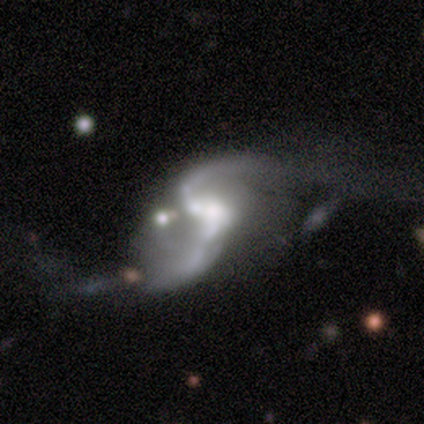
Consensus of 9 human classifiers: This is likely a featured or disk galaxy (78%). It is clearly not viewed edge-on (100%). Bar: possibly no (57%). Spiral arm pattern: clearly yes (86%). Spiral arm count: clearly 2 (100%). Spiral winding: clearly loose (100%). Central bulge: marginally moderate (43%). Merging: marginally major disturbance (38%).